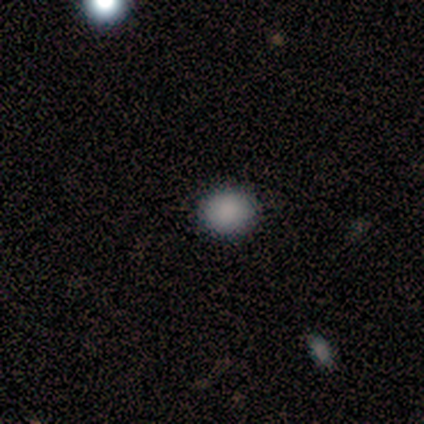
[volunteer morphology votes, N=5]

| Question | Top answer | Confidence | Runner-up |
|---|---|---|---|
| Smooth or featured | smooth | 80% | star or artifact (20%) |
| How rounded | round | 50% | tied: in between (50%) |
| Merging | none | 100% | — |